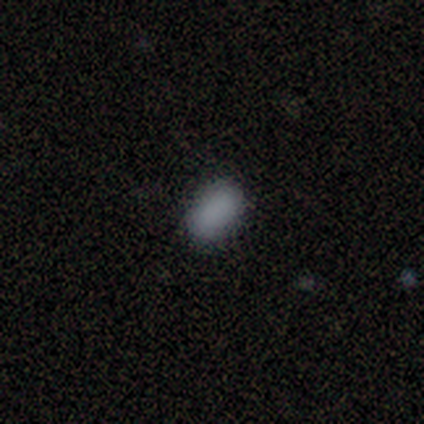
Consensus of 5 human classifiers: This appears to be a smooth galaxy with no disk features (80%) that is in between round and cigar-shaped (100%). Merging: none (100%).